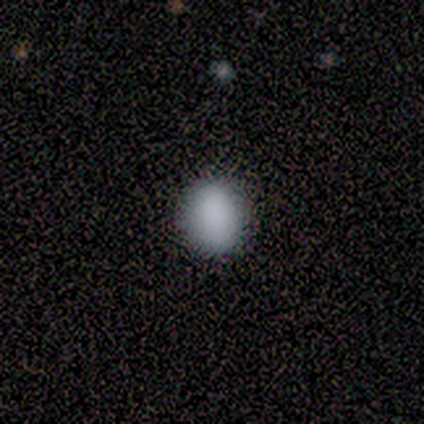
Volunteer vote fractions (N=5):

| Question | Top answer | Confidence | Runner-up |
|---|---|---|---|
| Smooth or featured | smooth | 80% | star or artifact (20%) |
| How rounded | round | 50% | tied: in between (50%) |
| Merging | none | 100% | — |